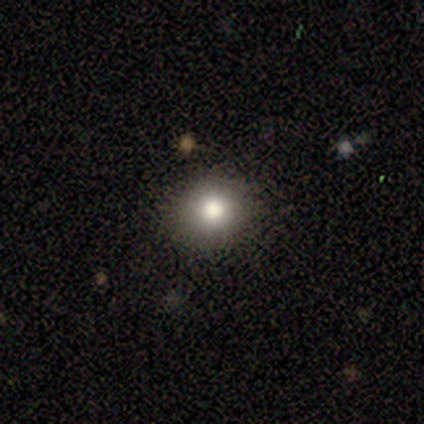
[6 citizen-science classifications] This is clearly a smooth galaxy (83%). How rounded: likely round (60%). Merging: clearly none (100%).